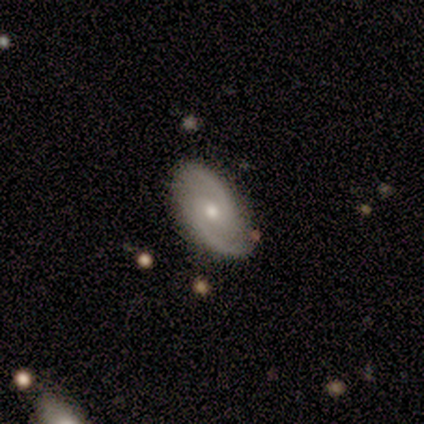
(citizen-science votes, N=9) This is likely a featured or disk galaxy (67%). It is clearly not viewed edge-on (100%). Bar: possibly no (50%). Spiral arm pattern: clearly yes (83%). Spiral arm count: clearly 2 (100%). Spiral winding: likely medium (60%). Central bulge: possibly small (50%). Merging: clearly none (100%).